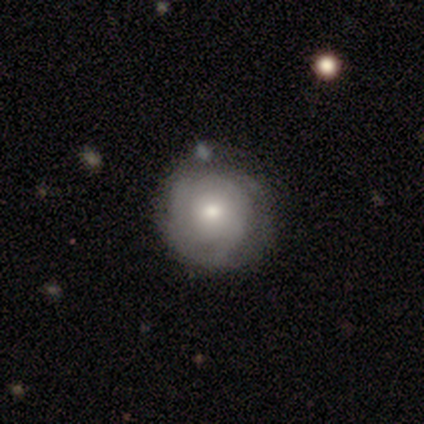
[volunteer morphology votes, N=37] type=featured or disk (65%); edge-on=no (100%); bar=no (83%); spiral arms=yes (71%); winding=tight (82%); arm count=can't tell (59%); bulge=moderate (58%); merging=none (70%).